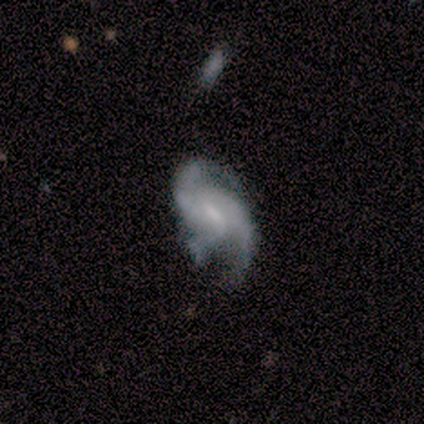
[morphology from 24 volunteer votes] type=featured or disk (88%); edge-on=no (95%); bar=weak (55%); spiral arms=yes (90%); winding=loose (56%); arm count=2 (67%); bulge=small (65%); merging=none (41%).